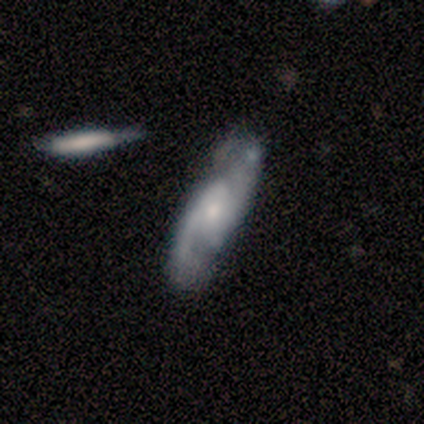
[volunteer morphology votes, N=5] Volunteers were most divided on "spiral winding" (2-way tie): medium: 50%, loose: 50%, tight: 0%. More confident: edge-on disk — no (100%); bar — no (100%); spiral arm count — 2 (100%); merging — none (80%); spiral arms — yes (67%); bulge size — small (67%); smooth or featured — featured or disk (60%).